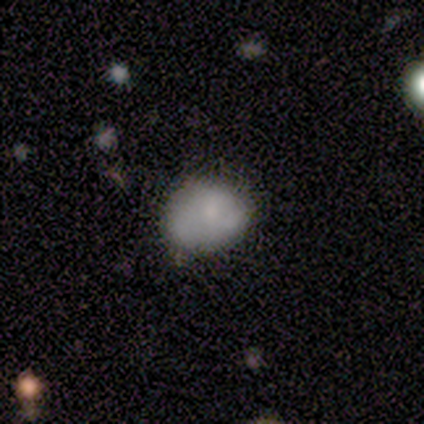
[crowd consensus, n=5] smooth 60%, featured or disk 40%, star or artifact 0%. Down the decision tree: how rounded — in between (67%); merging — none (40%, tied with minor disturbance).